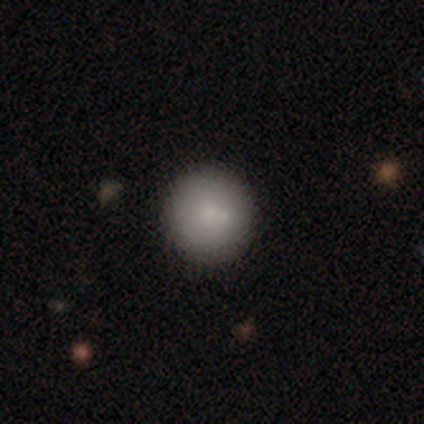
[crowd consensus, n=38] This appears to be a smooth galaxy with no disk features (87%) that is round (91%). Merging: none (68%).